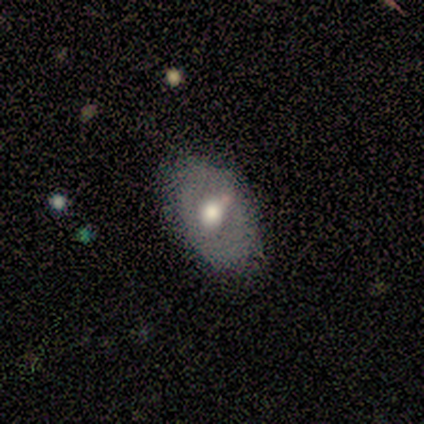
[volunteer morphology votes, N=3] type=featured or disk (67%); edge-on=no (100%); bar=no (100%); spiral arms=no (100%); bulge=large (50%, tied with small); merging=none (67%).